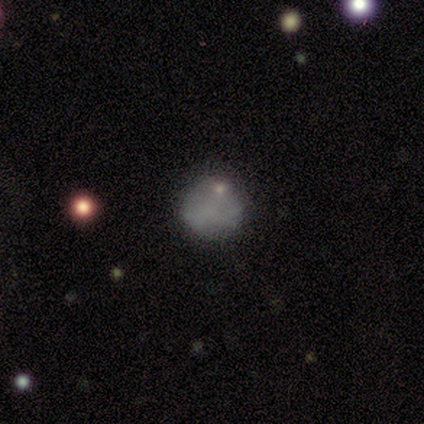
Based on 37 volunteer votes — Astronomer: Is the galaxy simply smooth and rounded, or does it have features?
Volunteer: smooth — 57%.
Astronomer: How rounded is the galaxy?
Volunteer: round — 81%.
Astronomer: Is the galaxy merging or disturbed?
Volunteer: none — 67%.